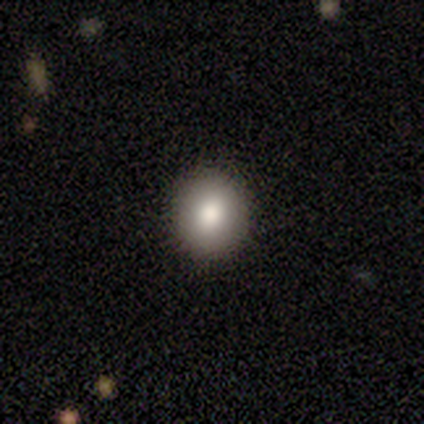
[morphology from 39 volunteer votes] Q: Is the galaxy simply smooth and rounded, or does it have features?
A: smooth — 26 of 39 (67%).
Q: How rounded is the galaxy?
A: round — 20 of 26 (77%).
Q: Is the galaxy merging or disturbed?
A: none — 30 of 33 (91%).